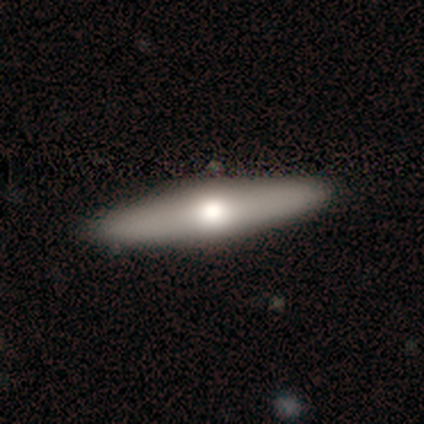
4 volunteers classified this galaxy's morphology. Q: Smooth or featured?
A: smooth (50%); tied with: featured or disk (50%)
Q: How rounded?
A: cigar-shaped (100%)
Q: Merging?
A: none (100%)